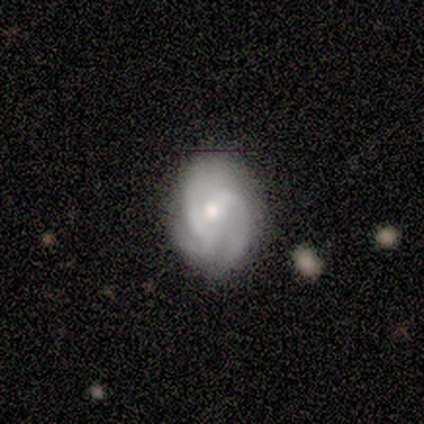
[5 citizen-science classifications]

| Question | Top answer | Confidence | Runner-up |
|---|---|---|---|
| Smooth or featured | featured or disk | 100% | — |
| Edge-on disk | no | 100% | — |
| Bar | weak | 80% | no (20%) |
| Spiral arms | yes | 100% | — |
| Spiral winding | medium | 40% | tied: loose (40%) |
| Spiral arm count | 2 | 60% | 3 (40%) |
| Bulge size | moderate | 80% | small (20%) |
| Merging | none | 100% | — |